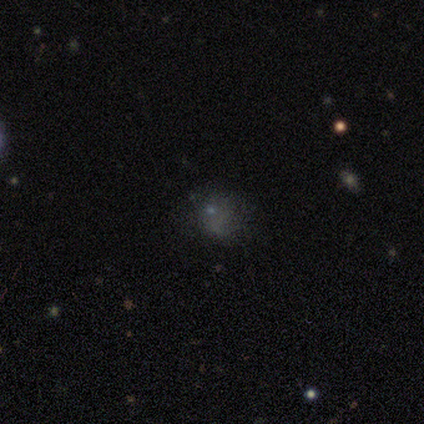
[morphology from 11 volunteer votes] type=smooth (55%); roundness=in between (67%); merging=none (57%).